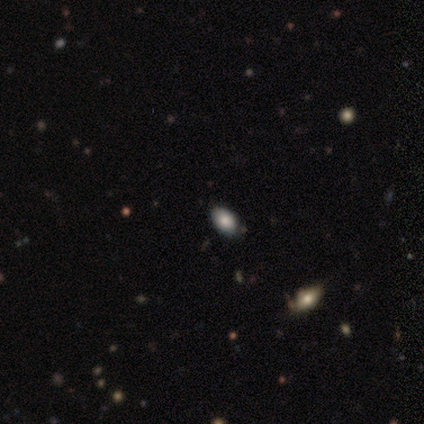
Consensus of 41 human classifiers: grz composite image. It shows a smooth galaxy with no disk features (83%) that is in between round and cigar-shaped (97%). Merging: none (78%).